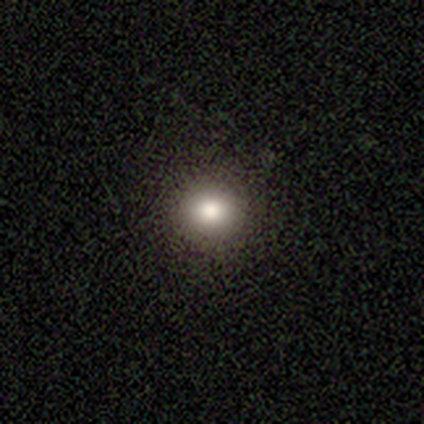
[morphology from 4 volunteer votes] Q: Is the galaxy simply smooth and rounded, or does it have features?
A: smooth — 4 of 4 (100%).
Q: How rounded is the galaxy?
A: round — 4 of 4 (100%).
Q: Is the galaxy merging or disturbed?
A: none — 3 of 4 (75%).